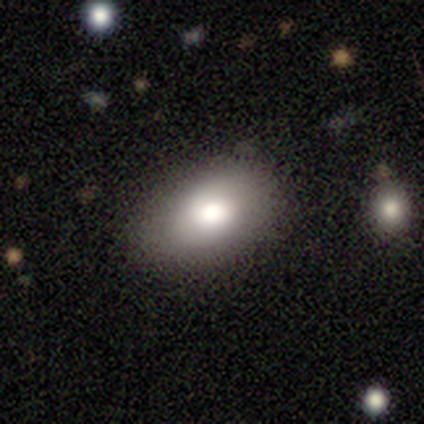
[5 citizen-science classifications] Q: Smooth or featured?
A: smooth (60%); runner-up: featured or disk (40%)
Q: How rounded?
A: in between (100%)
Q: Merging?
A: none (100%)